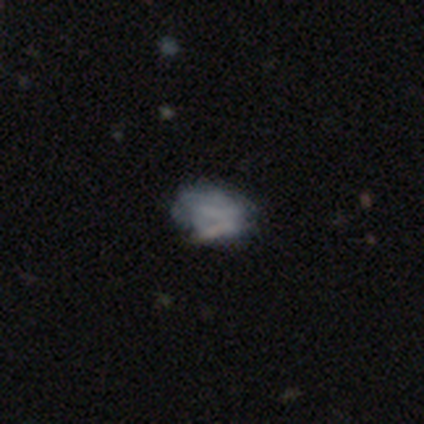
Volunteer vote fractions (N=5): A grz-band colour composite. It shows a featured or disk galaxy (80%) with no bar (75%), no spiral arms (100%) and a small central bulge (50%, tied with none). Merging: none (40%, tied with minor disturbance).